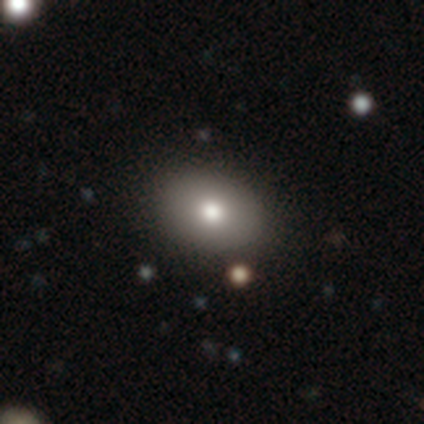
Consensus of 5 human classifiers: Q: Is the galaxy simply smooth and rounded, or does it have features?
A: smooth — 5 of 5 (100%).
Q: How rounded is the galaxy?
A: in between — 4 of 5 (80%).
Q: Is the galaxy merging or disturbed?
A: none — 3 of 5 (60%).